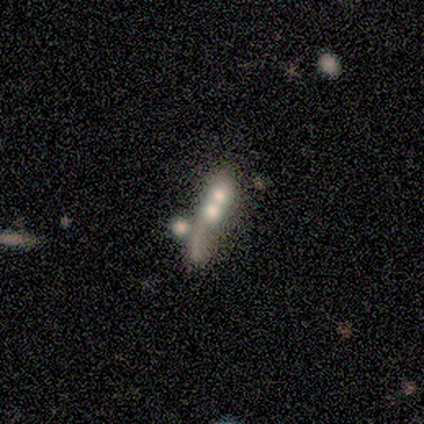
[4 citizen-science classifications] This appears to be a smooth galaxy with no disk features (50%) that is round (50%, tied with cigar-shaped). Merging: merger (67%).